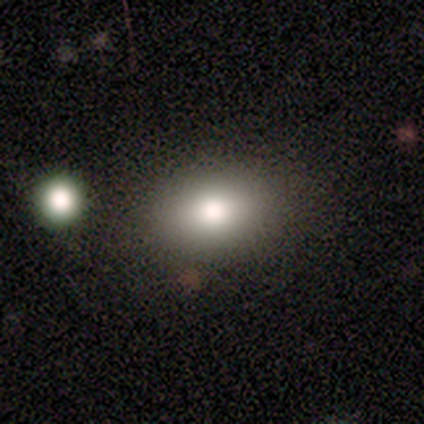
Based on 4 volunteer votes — Q: Smooth or featured?
A: smooth (50%); runner-up: featured or disk (25%)
Q: How rounded?
A: in between (100%)
Q: Merging?
A: none (100%)